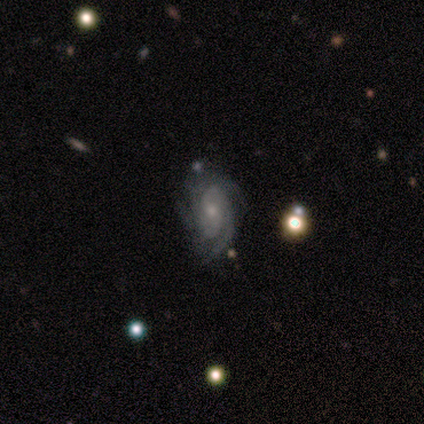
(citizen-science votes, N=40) A featured or disk galaxy (98%) with no bar (66%), 3 (39%) tight (61%) spiral arms (100%) and a small central bulge (53%). Merging: none (70%).